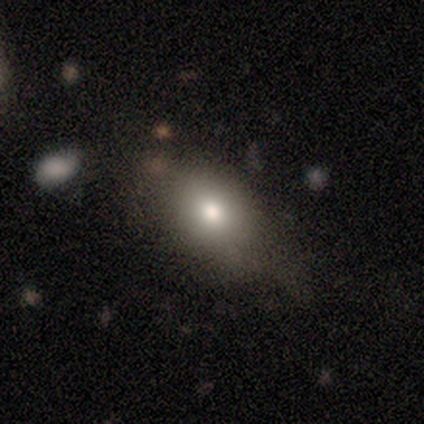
Smooth or featured?
  - smooth: 50% * (tied)
  - featured or disk: 50% * (tied)
  - star or artifact: 0%
How rounded?
  - round: 50% * (tied)
  - in between: 50% * (tied)
  - cigar-shaped: 0%
Merging?
  - none: 75% *
  - minor disturbance: 25%
  - major disturbance: 0%
  - merger: 0%